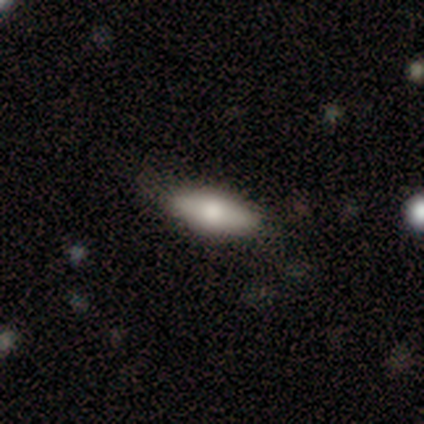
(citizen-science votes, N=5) Overall: smooth (80%). How rounded: in between (75%). Merging: none (60%; minor disturbance 40%).